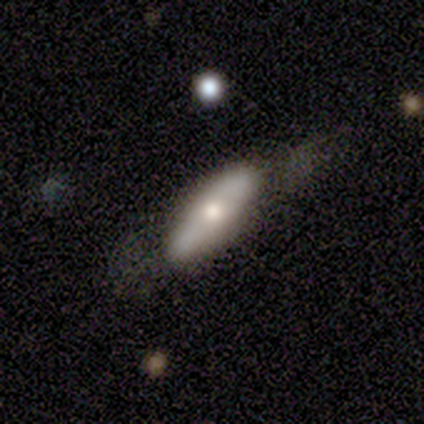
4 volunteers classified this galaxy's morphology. Smooth or featured? smooth (75%)
How rounded? in between (67%)
Merging? none (75%)